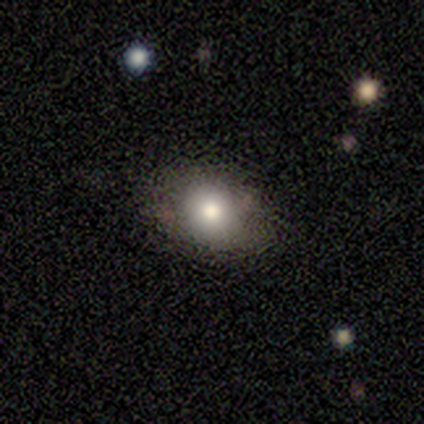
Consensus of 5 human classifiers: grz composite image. It shows a smooth galaxy with no disk features (60%) that is round (67%). Merging: none (75%).